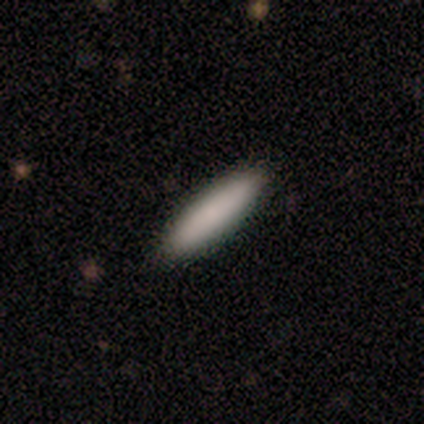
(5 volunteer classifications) This is likely a smooth galaxy (60%). How rounded: clearly cigar-shaped (100%). Merging: clearly none (100%).